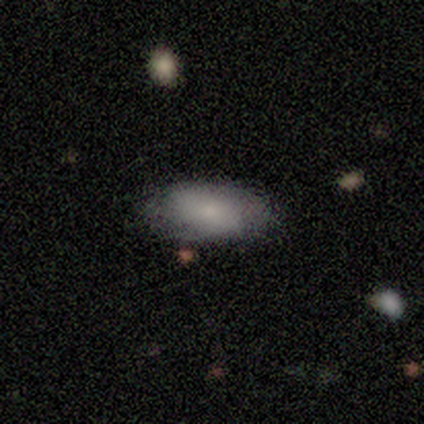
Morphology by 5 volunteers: Q: Smooth or featured?
A: smooth (60%); runner-up: featured or disk (40%)
Q: How rounded?
A: in between (100%)
Q: Merging?
A: none (80%); runner-up: minor disturbance (20%)